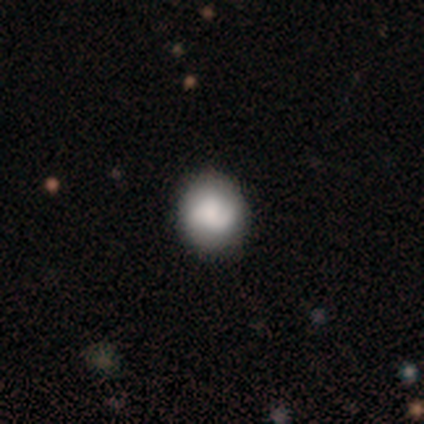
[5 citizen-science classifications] A smooth galaxy with no disk features (100%) that is in between round and cigar-shaped (60%). Merging: none (80%).